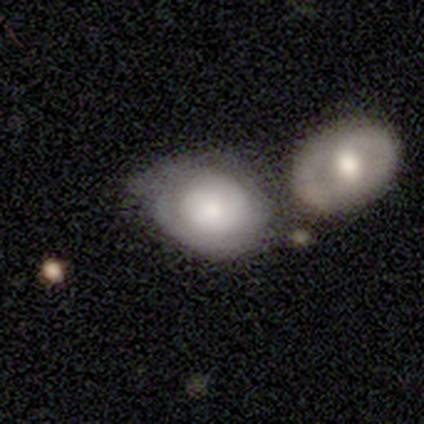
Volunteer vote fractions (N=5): Smooth or featured?
  - smooth: 60% *
  - featured or disk: 40%
  - star or artifact: 0%
How rounded?
  - in between: 67% *
  - round: 33%
  - cigar-shaped: 0%
Merging?
  - merger: 60% *
  - none: 20%
  - minor disturbance: 20%
  - major disturbance: 0%